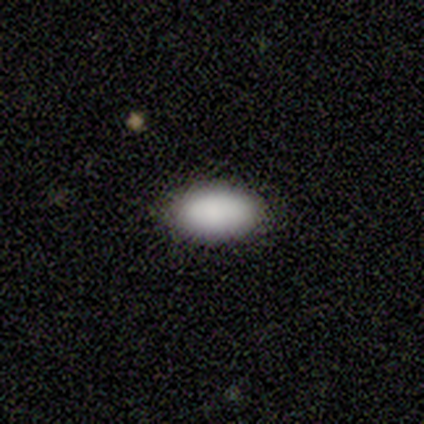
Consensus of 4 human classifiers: smooth-or-featured: smooth: 100% | featured or disk: 0% | star or artifact: 0%
  how-rounded: in between: 100% | round: 0% | cigar-shaped: 0%
  merging: none: 75% | minor disturbance: 25% | major disturbance: 0% | merger: 0%